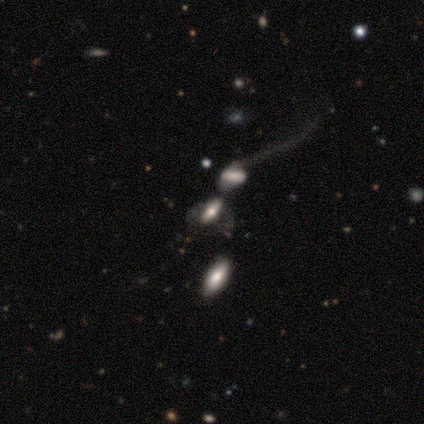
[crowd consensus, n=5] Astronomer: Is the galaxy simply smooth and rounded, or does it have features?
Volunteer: featured or disk — 60% (runner-up: smooth, 40%).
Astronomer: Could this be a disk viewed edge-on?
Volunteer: no — 67%.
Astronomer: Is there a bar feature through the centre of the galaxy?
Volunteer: weak — 50%, tied with no at 50%.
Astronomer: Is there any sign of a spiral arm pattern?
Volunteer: yes — 50%, tied with no at 50%.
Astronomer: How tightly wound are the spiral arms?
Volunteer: loose — 100%.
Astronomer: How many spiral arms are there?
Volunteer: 1 — 100%.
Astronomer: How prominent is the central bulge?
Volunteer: large — 50%, tied with small at 50%.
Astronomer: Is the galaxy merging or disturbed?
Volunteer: merger — 60%.